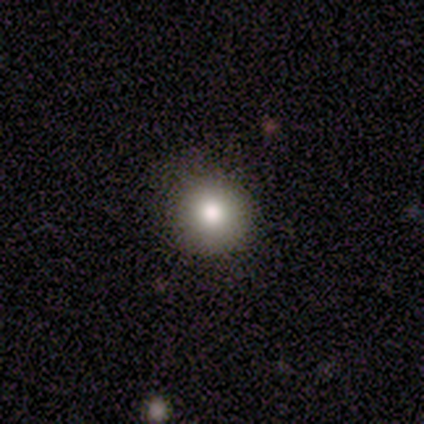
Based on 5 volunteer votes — Morphology: type=smooth (80%); roundness=round (100%); merging=none (100%).